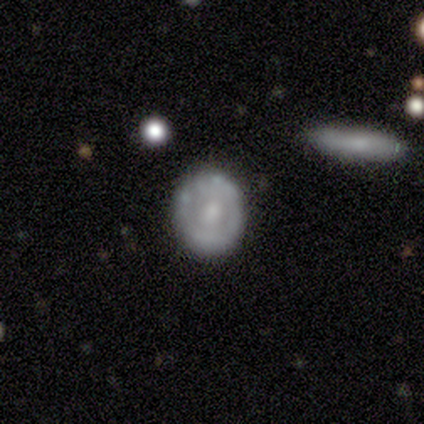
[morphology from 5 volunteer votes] A featured or disk galaxy (80%) with a weak bar (50%, tied with no), no spiral arms (75%) and a moderate central bulge (100%). Merging: none (60%).